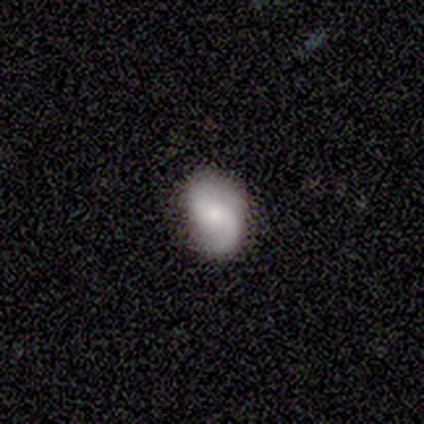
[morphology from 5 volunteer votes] type=featured or disk (100%); edge-on=no (80%); bar=no (100%); spiral arms=yes (100%); winding=loose (75%); arm count=2 (100%); bulge=moderate (50%, tied with small); merging=none (100%).